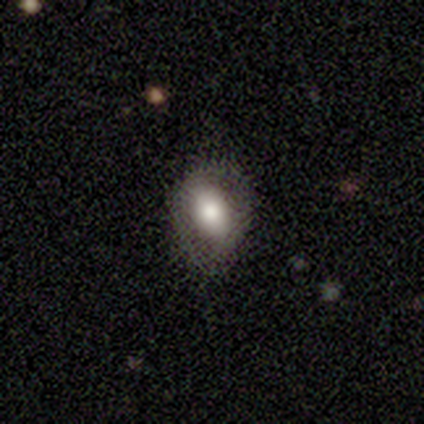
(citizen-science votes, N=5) Q: Smooth or featured?
A: smooth (80%); runner-up: star or artifact (20%)
Q: How rounded?
A: in between (75%); runner-up: round (25%)
Q: Merging?
A: minor disturbance (75%); runner-up: none (25%)